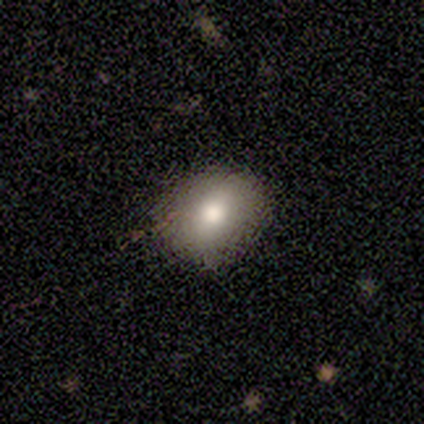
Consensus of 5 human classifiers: Q: Smooth or featured?
A: smooth (60%); runner-up: featured or disk (20%)
Q: How rounded?
A: round (67%); runner-up: in between (33%)
Q: Merging?
A: none (75%); runner-up: minor disturbance (25%)